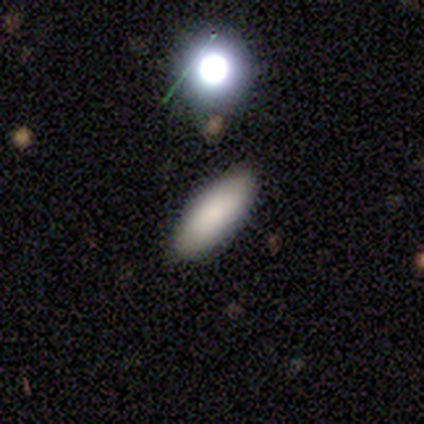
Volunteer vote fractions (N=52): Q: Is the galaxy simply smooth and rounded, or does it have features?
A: smooth — 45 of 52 (87%).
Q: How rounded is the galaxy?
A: in between — 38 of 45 (84%).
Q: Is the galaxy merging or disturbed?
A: none — 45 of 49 (92%).